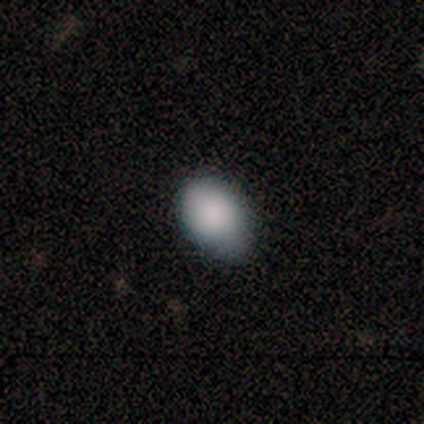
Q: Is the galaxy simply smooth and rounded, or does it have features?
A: smooth — 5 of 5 (100%).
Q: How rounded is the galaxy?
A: in between — 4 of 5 (80%).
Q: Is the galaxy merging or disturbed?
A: none — 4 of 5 (80%).